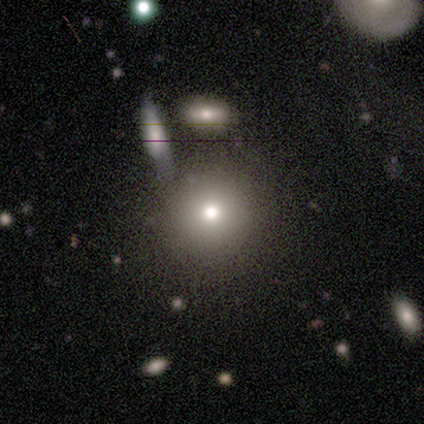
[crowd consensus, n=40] Smooth or featured: smooth — 72% (featured or disk — 15%)
How rounded: round — 86% (in between — 14%)
Merging: none — 71% (merger — 23%)